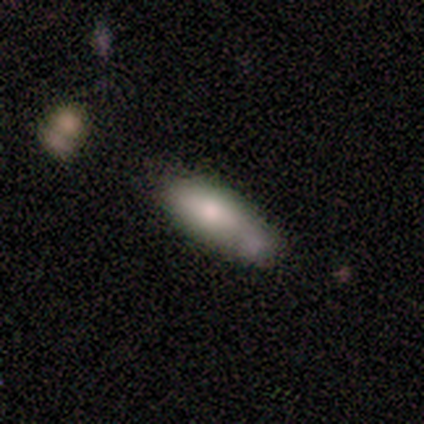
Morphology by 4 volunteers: smooth-or-featured: smooth: 75% | featured or disk: 25% | star or artifact: 0%
  how-rounded: cigar-shaped: 100% | round: 0% | in between: 0%
  merging: none: 50% | major disturbance: 25% | merger: 25% | minor disturbance: 0%